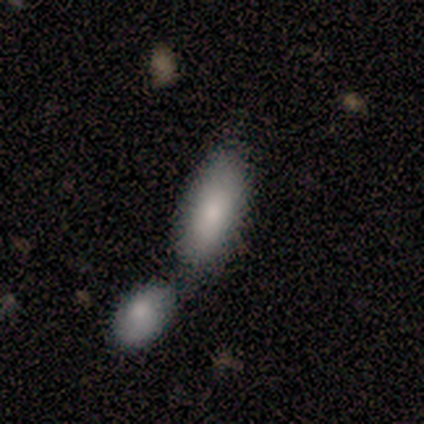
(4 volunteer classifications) Overall: smooth (50%; featured or disk 25%). How rounded: in between (100%). Merging: merger (100%).